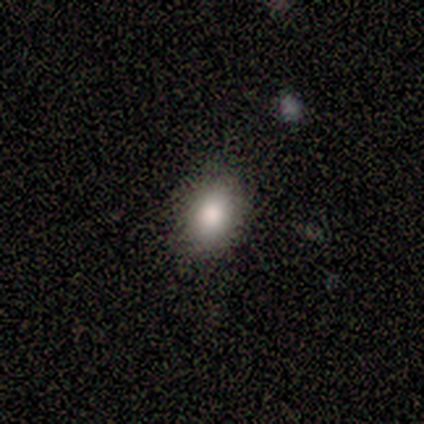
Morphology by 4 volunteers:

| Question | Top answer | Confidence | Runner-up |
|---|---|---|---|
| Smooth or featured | smooth | 100% | — |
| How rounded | round | 75% | in between (25%) |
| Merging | none | 100% | — |